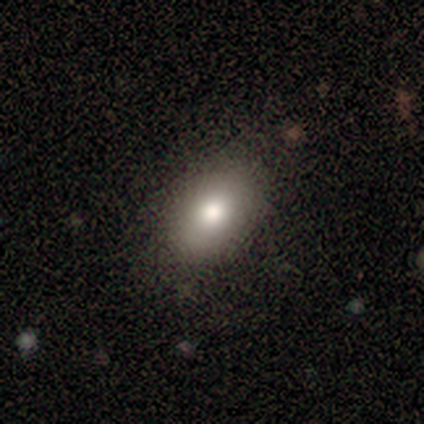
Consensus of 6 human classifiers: Volunteers were most divided on "smooth or featured": smooth: 83%, featured or disk: 17%, star or artifact: 0%. More confident: how rounded — in between (100%); merging — none (83%).